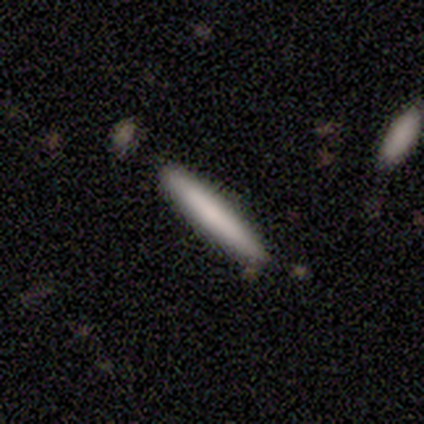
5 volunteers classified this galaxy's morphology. Smooth or featured?
  - smooth: 100% *
  - featured or disk: 0%
  - star or artifact: 0%
How rounded?
  - cigar-shaped: 100% *
  - round: 0%
  - in between: 0%
Merging?
  - none: 80% *
  - merger: 20%
  - minor disturbance: 0%
  - major disturbance: 0%